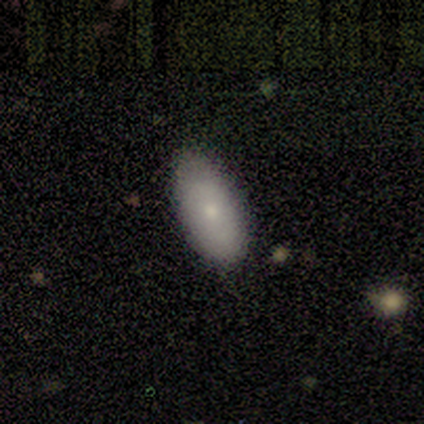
Volunteers were most divided on "merging": none: 60%, minor disturbance: 40%, major disturbance: 0%, merger: 0%. More confident: smooth or featured — smooth (100%); how rounded — in between (100%).